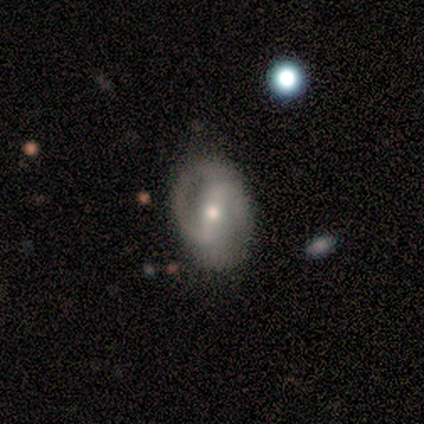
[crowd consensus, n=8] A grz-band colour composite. It shows a featured or disk galaxy (75%) with a weak bar (60%), 2 (80%) loose (80%) spiral arms (100%) and a small central bulge (100%). Merging: none (88%).